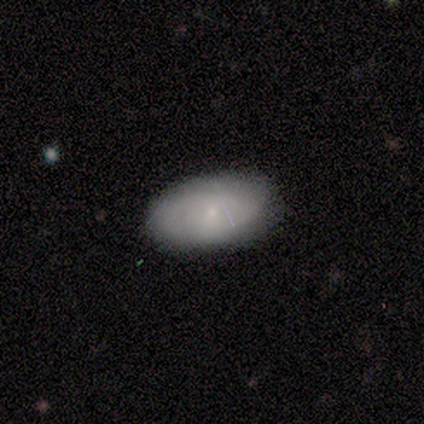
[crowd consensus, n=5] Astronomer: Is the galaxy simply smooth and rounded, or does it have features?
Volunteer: featured or disk — 60% (runner-up: smooth, 40%).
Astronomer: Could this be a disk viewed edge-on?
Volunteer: no — 100%.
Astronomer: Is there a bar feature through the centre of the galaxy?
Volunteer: no — 67%.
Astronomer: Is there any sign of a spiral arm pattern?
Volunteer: no — 67%.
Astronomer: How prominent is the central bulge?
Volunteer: small — 100%.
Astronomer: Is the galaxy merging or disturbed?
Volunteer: none — 80%.